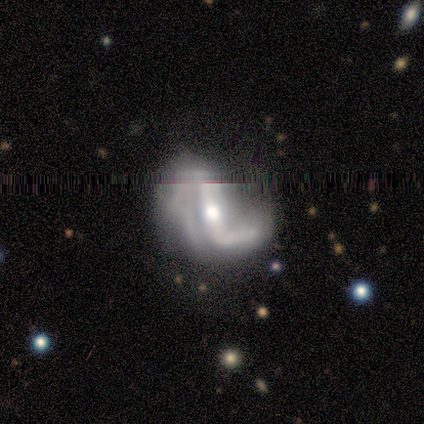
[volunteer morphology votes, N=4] Smooth or featured: featured or disk — 75% (star or artifact — 25%)
Edge-on disk: no — 100%
Bar: weak — 67% (no — 33%)
Spiral arms: yes — 67% (no — 33%)
Spiral winding: tight — 50% (tied with medium — 50%)
Spiral arm count: 2 — 100%
Bulge size: small — 67% (moderate — 33%)
Merging: none — 67% (minor disturbance — 33%)